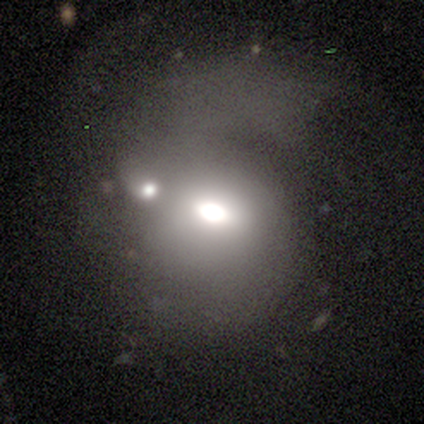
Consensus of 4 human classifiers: Morphology: type=featured or disk (75%); edge-on=no (100%); bar=weak (67%); spiral arms=yes (67%); winding=loose (100%); arm count=1 (50%, tied with can't tell); bulge=dominant (67%); merging=none (33%, tied with major disturbance and merger).